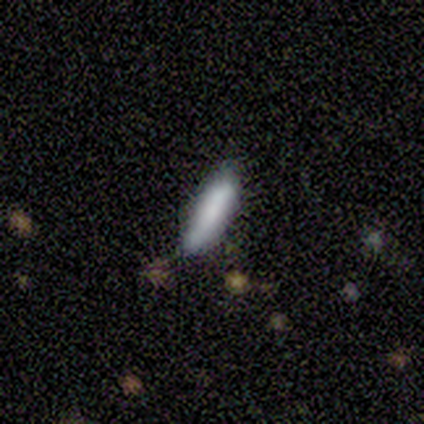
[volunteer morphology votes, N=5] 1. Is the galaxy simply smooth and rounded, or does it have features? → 80% smooth, 20% featured or disk, 0% star or artifact.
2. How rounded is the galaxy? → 50% in between (tied), 50% cigar-shaped (tied), 0% round.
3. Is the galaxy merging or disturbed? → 60% none, 40% minor disturbance, 0% major disturbance, 0% merger.